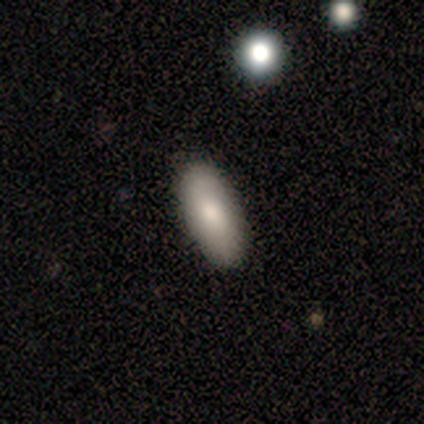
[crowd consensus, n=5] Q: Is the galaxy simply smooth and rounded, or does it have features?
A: smooth — 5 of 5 (100%).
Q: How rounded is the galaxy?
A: in between — 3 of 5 (60%).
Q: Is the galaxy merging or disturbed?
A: none — 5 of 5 (100%).